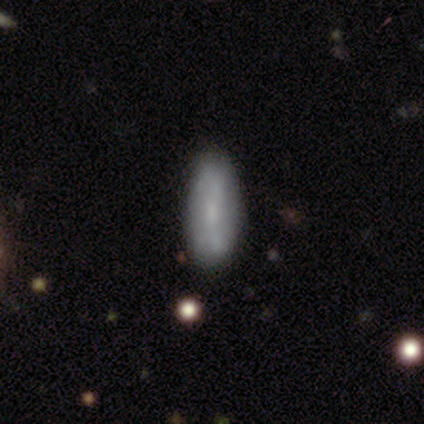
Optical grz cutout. It shows a featured or disk galaxy (67%) with no bar (100%), no spiral arms (100%) and a small central bulge (50%, tied with none). Merging: none (67%).